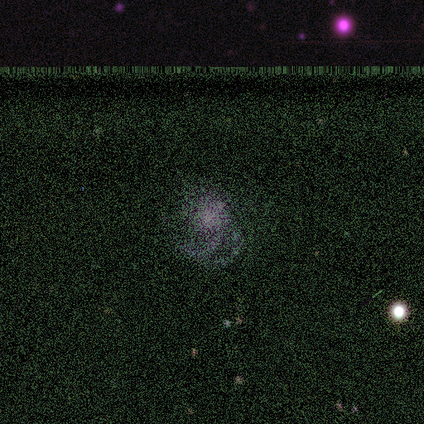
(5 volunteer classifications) This is likely a star or artifact rather than a galaxy (60%).